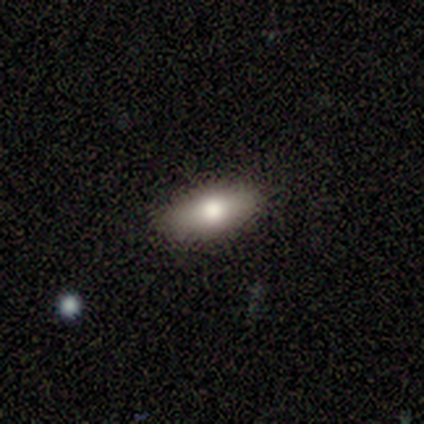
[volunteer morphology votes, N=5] type=smooth (100%); roundness=in between (100%); merging=none (80%).